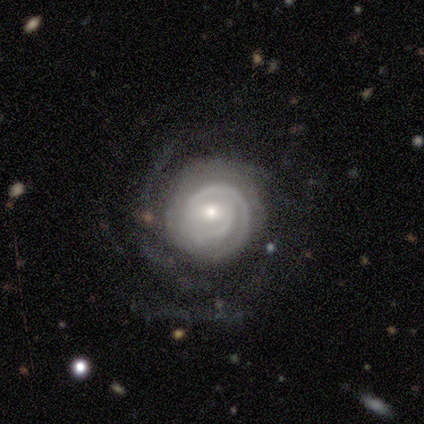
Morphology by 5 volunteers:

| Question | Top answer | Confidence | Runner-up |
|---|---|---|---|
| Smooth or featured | featured or disk | 100% | — |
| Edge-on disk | no | 100% | — |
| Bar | no | 60% | weak (40%) |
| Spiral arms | yes | 100% | — |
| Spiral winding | tight | 80% | medium (20%) |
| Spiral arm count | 2 | 40% | 3 (20%) |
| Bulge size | small | 60% | moderate (40%) |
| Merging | none | 60% | minor disturbance (40%) |